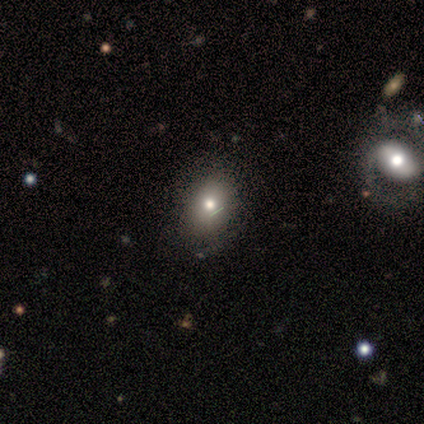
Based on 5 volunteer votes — Morphology: type=smooth (80%); roundness=in between (75%); merging=none (75%).